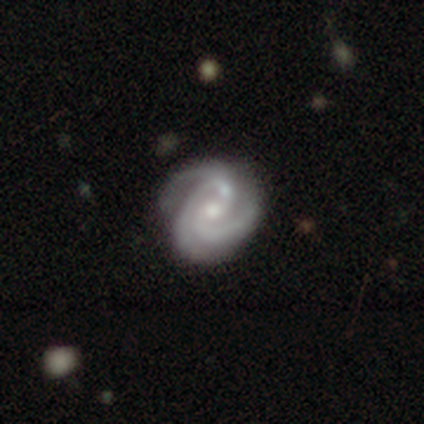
Smooth or featured?
  - featured or disk: 92% *
  - star or artifact: 5%
  - smooth: 4%
Edge-on disk?
  - no: 99% *
  - yes: 1%
Bar?
  - no: 61% *
  - weak: 30%
  - strong: 9%
Spiral arms?
  - yes: 99% *
  - no: 1%
Spiral winding?
  - tight: 64% *
  - medium: 36%
  - loose: 0%
Spiral arm count?
  - 3: 78% *
  - 2: 13%
  - can't tell: 7%
  - 1: 1%
  - 4: 1%
  - more than 4: 0%
Bulge size?
  - small: 48% *
  - moderate: 43%
  - large: 6%
  - none: 3%
  - dominant: 0%
Merging?
  - none: 63% *
  - minor disturbance: 19%
  - major disturbance: 10%
  - merger: 9%